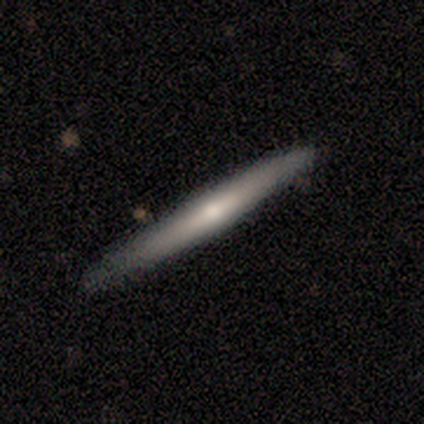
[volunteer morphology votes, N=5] smooth_or_featured: smooth (p=0.40) [tied with: featured or disk p=0.40]
how_rounded: cigar-shaped (p=1.00)
merging: none (p=0.75) [alt: minor disturbance p=0.25]